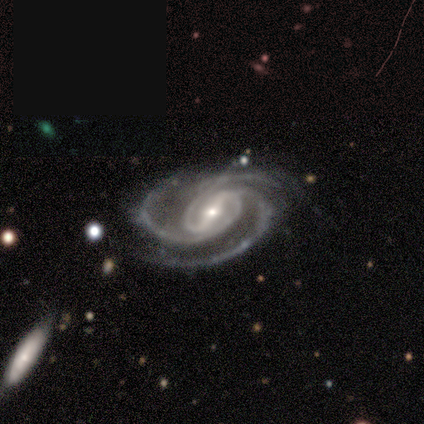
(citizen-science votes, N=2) This appears to be a featured or disk galaxy (100%) with a strong bar (100%), 3 (100%) tight (100%) spiral arms (100%) and a small central bulge (100%). Merging: none (100%).